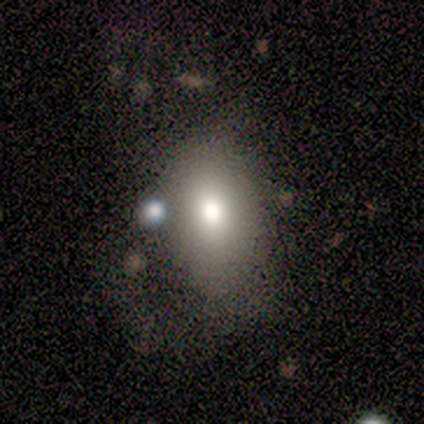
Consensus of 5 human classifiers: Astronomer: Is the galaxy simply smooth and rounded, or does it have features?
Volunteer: smooth — 60% (runner-up: featured or disk, 40%).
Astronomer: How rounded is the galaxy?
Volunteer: in between — 67%.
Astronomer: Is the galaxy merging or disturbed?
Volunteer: none — 80%.